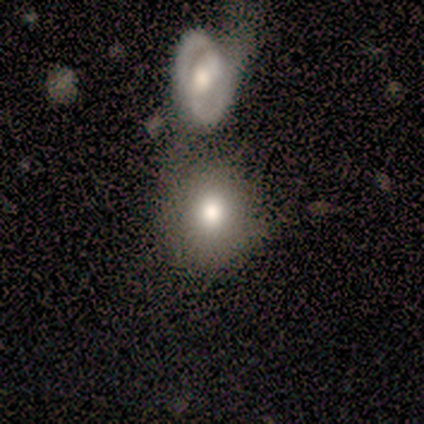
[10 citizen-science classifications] smooth 60%, star or artifact 30%, featured or disk 10%. Down the decision tree: how rounded — round (100%); merging — none (57%).